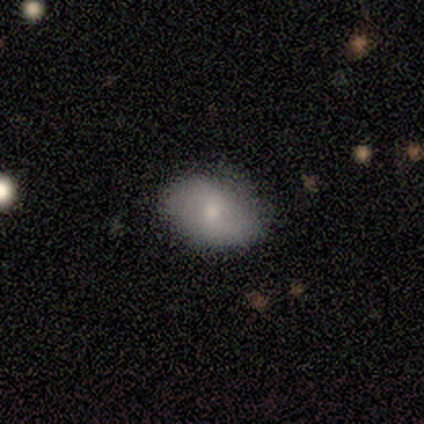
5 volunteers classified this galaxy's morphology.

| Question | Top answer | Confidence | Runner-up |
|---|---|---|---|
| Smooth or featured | smooth | 60% | featured or disk (20%) |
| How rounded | in between | 67% | round (33%) |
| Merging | none | 75% | minor disturbance (25%) |